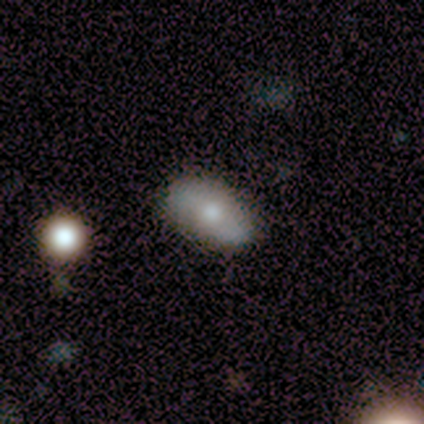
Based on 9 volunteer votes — A smooth galaxy with no disk features (56%) that is in between round and cigar-shaped (100%). Merging: none (75%).